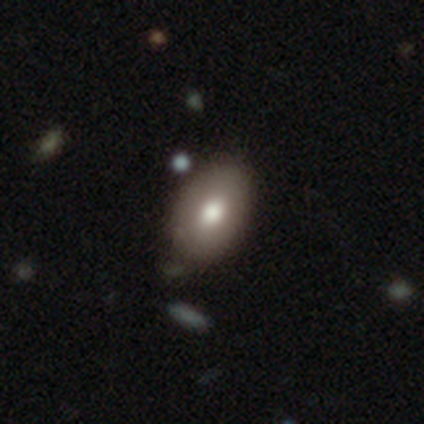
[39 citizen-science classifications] A smooth galaxy with no disk features (77%) that is in between round and cigar-shaped (93%). Merging: none (81%).